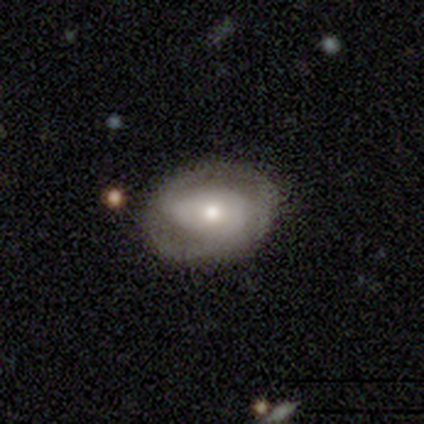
Smooth or featured?
  - featured or disk: 68% *
  - smooth: 28%
  - star or artifact: 5%
Edge-on disk?
  - no: 100% *
  - yes: 0%
Bar?
  - weak: 37% * (tied)
  - no: 37% * (tied)
  - strong: 26%
Spiral arms?
  - yes: 93% *
  - no: 7%
Spiral winding?
  - tight: 52% *
  - medium: 44%
  - loose: 4%
Spiral arm count?
  - 2: 84% *
  - can't tell: 16%
  - 1: 0%
  - 3: 0%
  - 4: 0%
  - more than 4: 0%
Bulge size?
  - moderate: 48% *
  - small: 41%
  - large: 11%
  - dominant: 0%
  - none: 0%
Merging?
  - none: 87% *
  - minor disturbance: 5%
  - major disturbance: 5%
  - merger: 3%